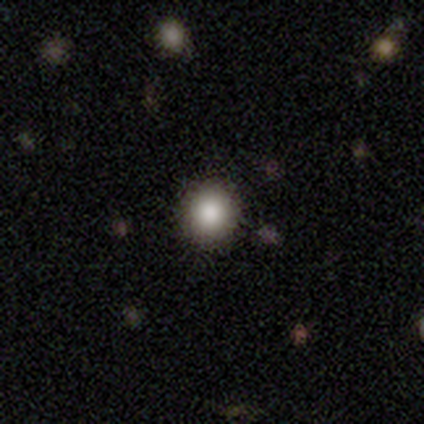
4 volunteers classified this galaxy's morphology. smooth_or_featured: smooth (p=1.00)
how_rounded: round (p=1.00)
merging: none (p=1.00)